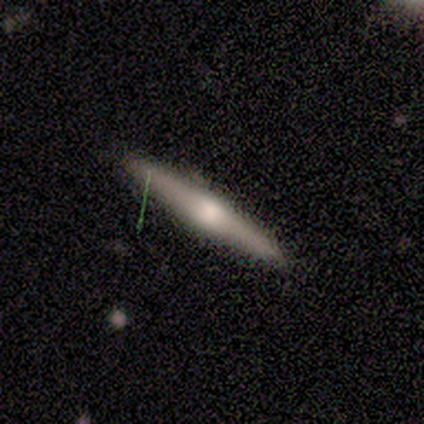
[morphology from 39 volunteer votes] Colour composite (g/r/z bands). It shows a featured or disk galaxy (74%) viewed edge-on (100%) with a rounded central bulge (93%). Merging: none (97%).